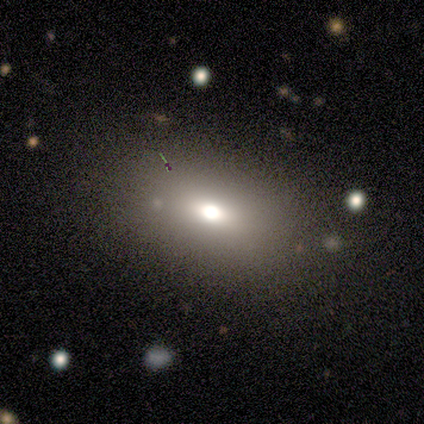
A smooth galaxy with no disk features (67%) that is in between round and cigar-shaped (67%).

Vote fractions:
- Smooth or featured? smooth: 67% / featured or disk: 22% / star or artifact: 11%
- How rounded? in between: 67% / round: 17% / cigar-shaped: 17%
- Merging? none: 100% / minor disturbance: 0% / major disturbance: 0% / merger: 0%